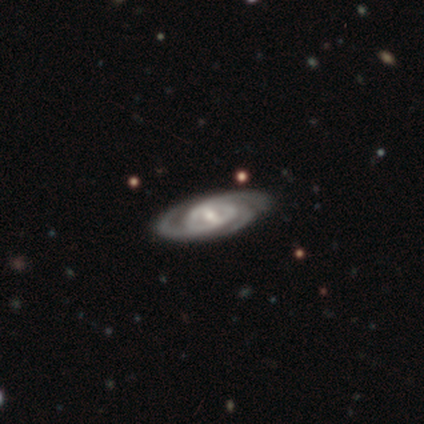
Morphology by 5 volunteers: A featured or disk galaxy (100%) with a strong bar (40%, tied with weak), 3 (100%) tight (60%) spiral arms (100%) and a moderate central bulge (60%). Merging: none (100%).